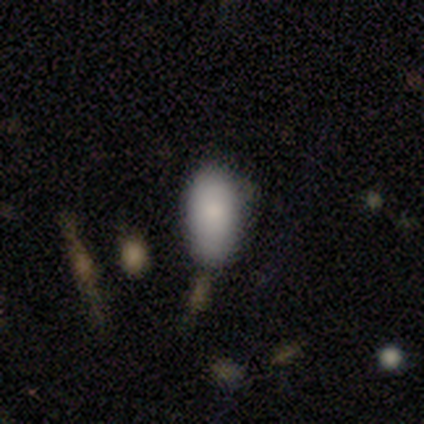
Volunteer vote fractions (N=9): A smooth galaxy with no disk features (100%) that is in between round and cigar-shaped (100%).

Vote fractions:
- Smooth or featured? smooth: 100% / featured or disk: 0% / star or artifact: 0%
- How rounded? in between: 100% / round: 0% / cigar-shaped: 0%
- Merging? none: 78% / minor disturbance: 22% / major disturbance: 0% / merger: 0%